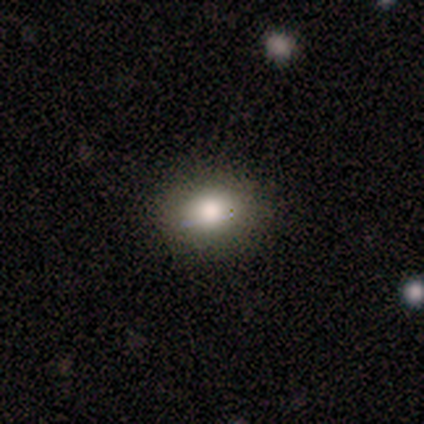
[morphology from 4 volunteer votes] Volunteers were most divided on "how rounded": in between: 67%, round: 33%, cigar-shaped: 0%. More confident: merging — none (100%); smooth or featured — smooth (75%).